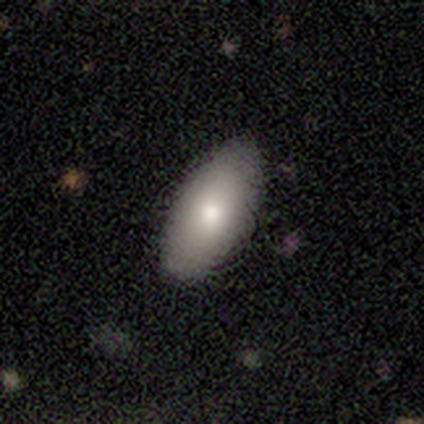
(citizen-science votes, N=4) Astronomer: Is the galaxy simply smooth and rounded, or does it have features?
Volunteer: smooth — 75%.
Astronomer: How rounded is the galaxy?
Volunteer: in between — 100%.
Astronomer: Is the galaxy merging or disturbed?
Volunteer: none — 67%.